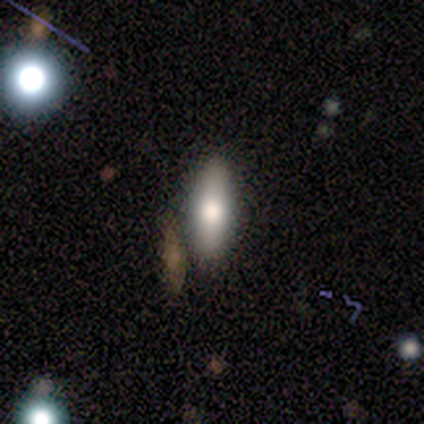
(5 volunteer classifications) smooth-or-featured: smooth: 60% | featured or disk: 40% | star or artifact: 0%
  how-rounded: in between: 100% | round: 0% | cigar-shaped: 0%
  merging: none: 80% | merger: 20% | minor disturbance: 0% | major disturbance: 0%